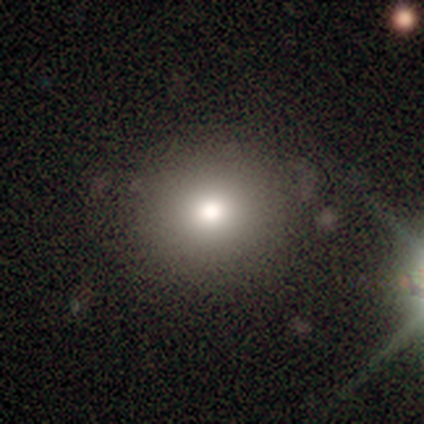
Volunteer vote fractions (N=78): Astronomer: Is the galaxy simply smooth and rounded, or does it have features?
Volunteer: smooth — 77%.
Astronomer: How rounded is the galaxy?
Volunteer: round — 87%.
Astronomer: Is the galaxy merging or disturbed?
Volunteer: none — 49%.